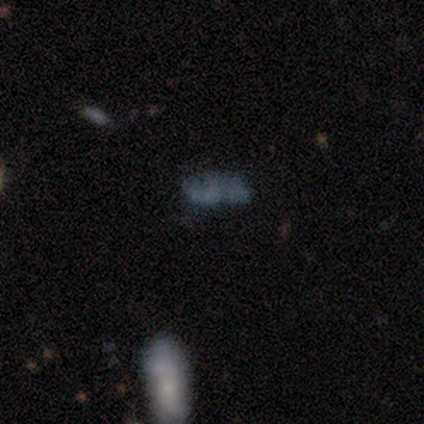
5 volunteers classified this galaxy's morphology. smooth 80%, featured or disk 20%, star or artifact 0%. Down the decision tree: how rounded — in between (100%); merging — none (60%).